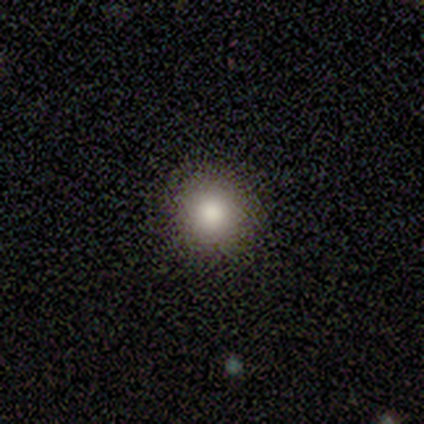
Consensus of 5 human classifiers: This appears to be a smooth galaxy with no disk features (80%) that is round (100%). Merging: none (75%).